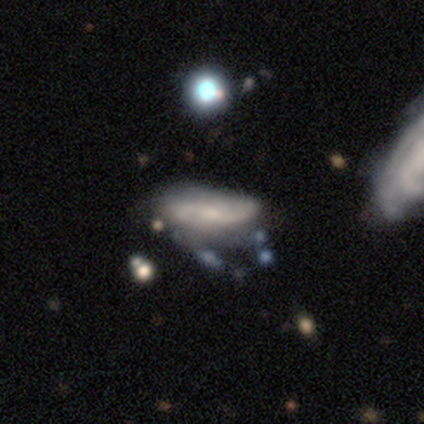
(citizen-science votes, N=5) Smooth or featured? featured or disk (100%)
Edge-on disk? no (100%)
Bar? no (80%)
Spiral arms? yes (80%)
Spiral winding? medium (50%, tied with loose)
Spiral arm count? 2 (75%)
Bulge size? moderate (40%, tied with small)
Merging? none (80%)